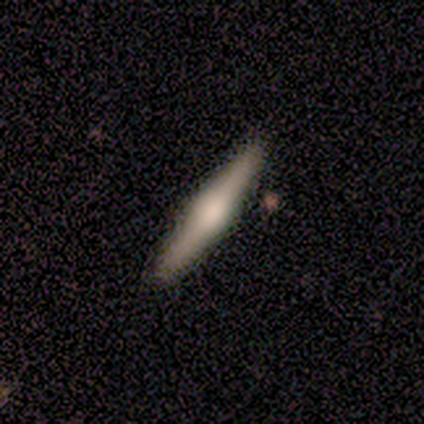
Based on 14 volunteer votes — Smooth or featured: featured or disk — 50% (smooth — 36%)
Edge-on disk: yes — 100%
Edge-on bulge: rounded — 100%
Merging: none — 75% (minor disturbance — 8%)